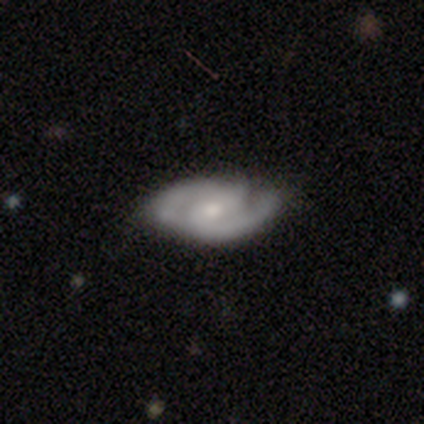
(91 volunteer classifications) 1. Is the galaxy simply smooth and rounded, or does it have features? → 85% featured or disk, 8% smooth, 8% star or artifact.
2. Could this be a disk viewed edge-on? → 96% no, 4% yes.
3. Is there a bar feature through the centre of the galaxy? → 50% no, 42% weak, 8% strong.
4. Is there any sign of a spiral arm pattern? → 95% yes, 5% no.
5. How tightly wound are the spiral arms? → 47% medium, 37% tight, 16% loose.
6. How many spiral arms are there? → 91% 2, 6% 3, 3% can't tell, 0% 1, 0% 4, 0% more than 4.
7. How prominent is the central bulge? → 53% small, 45% moderate, 1% large, 1% none, 0% dominant.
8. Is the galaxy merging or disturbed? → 74% none, 20% minor disturbance, 6% major disturbance, 0% merger.